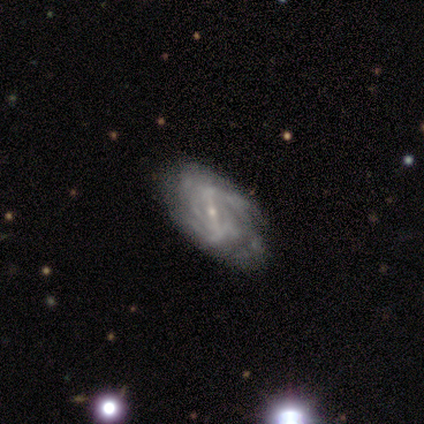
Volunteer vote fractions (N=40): featured or disk 95%, star or artifact 5%, smooth 0%. Down the decision tree: edge-on disk — no (100%); bar — strong (53%); spiral arms — yes (92%); spiral arm count — can't tell (46%); spiral winding — tight (57%); bulge size — small (84%); merging — none (55%).